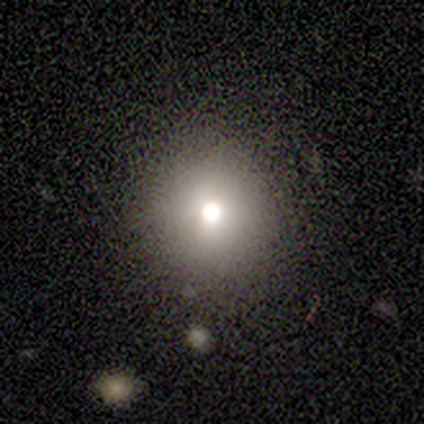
smooth 80%, star or artifact 20%, featured or disk 0%. Down the decision tree: how rounded — round (75%); merging — none (100%).